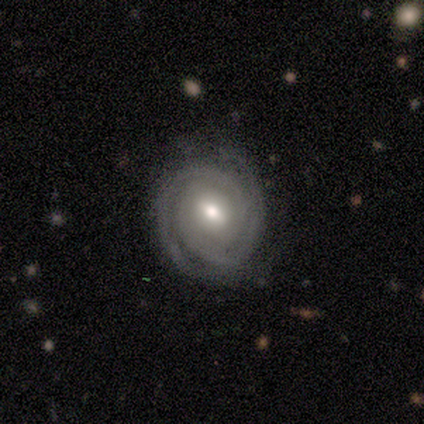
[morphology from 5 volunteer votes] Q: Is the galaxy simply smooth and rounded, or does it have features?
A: featured or disk — 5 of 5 (100%).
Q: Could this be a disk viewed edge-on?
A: no — 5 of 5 (100%).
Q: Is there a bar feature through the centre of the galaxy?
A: weak — 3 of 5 (60%).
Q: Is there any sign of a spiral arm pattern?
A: yes — 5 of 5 (100%).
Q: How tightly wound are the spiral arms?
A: tight — 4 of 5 (80%).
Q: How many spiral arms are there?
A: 2 — 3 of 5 (60%).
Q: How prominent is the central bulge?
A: moderate — 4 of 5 (80%).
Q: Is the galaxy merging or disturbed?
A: none — 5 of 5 (100%).